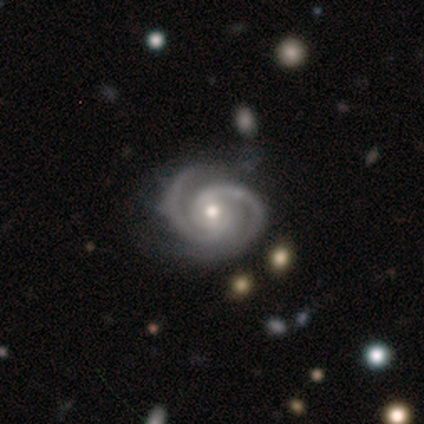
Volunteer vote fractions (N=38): Morphology: type=featured or disk (97%); edge-on=no (100%); bar=no (70%); spiral arms=yes (100%); winding=tight (73%); arm count=2 (95%); bulge=moderate (59%); merging=none (84%).